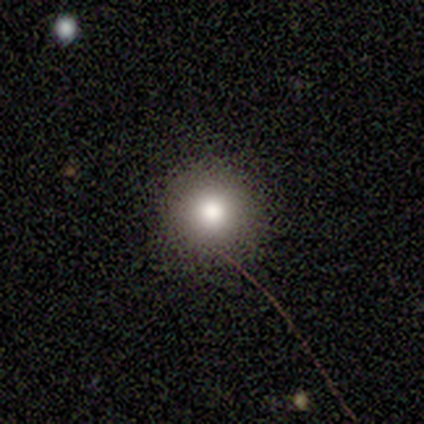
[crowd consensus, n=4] This is possibly a smooth galaxy (50%). How rounded: clearly round (100%). Merging: clearly none (100%).